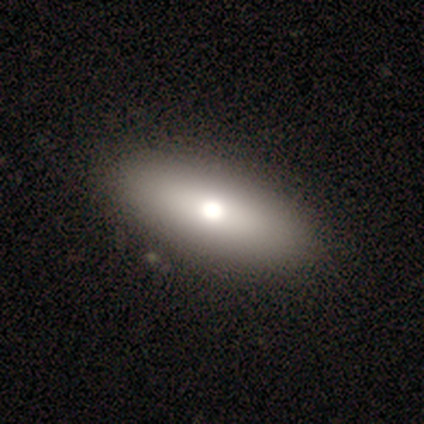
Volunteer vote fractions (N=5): Morphology: type=smooth (60%); roundness=in between (67%); merging=none (100%).